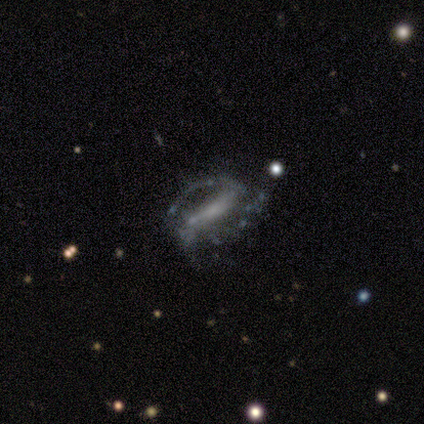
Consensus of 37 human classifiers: Q: Smooth or featured?
A: featured or disk (81%); runner-up: star or artifact (14%)
Q: Edge-on disk?
A: no (87%); runner-up: yes (13%)
Q: Bar?
A: strong (62%); runner-up: weak (23%)
Q: Spiral arms?
A: yes (88%); runner-up: no (12%)
Q: Spiral winding?
A: medium (43%); runner-up: tight (30%)
Q: Spiral arm count?
A: 2 (65%); runner-up: can't tell (26%)
Q: Bulge size?
A: none (62%); runner-up: small (31%)
Q: Merging?
A: none (62%); runner-up: major disturbance (28%)